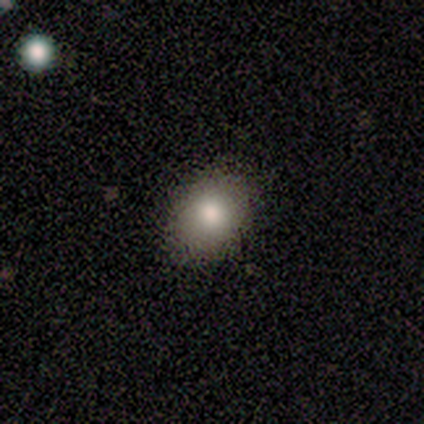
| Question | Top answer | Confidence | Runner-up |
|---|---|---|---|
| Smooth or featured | smooth | 60% | star or artifact (40%) |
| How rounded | in between | 100% | — |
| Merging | none | 67% | minor disturbance (33%) |